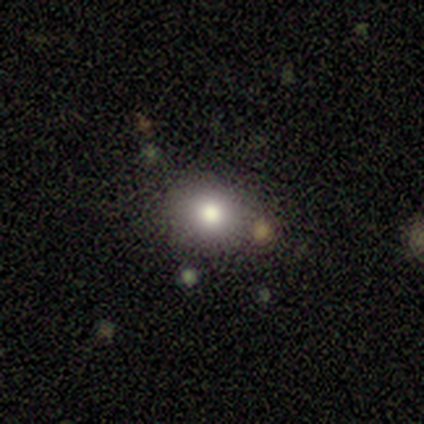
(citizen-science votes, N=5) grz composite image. It shows a smooth galaxy with no disk features (80%) that is round (75%). Merging: none (60%).